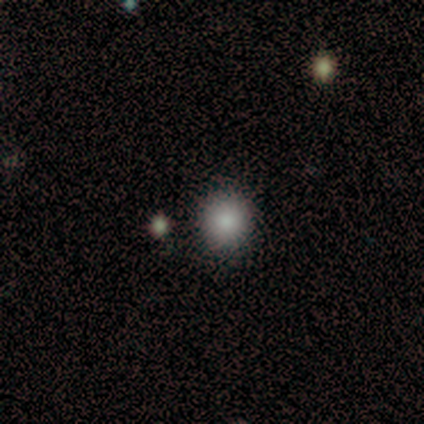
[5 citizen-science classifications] A smooth galaxy with no disk features (100%) that is round (100%).

Vote fractions:
- Smooth or featured? smooth: 100% / featured or disk: 0% / star or artifact: 0%
- How rounded? round: 100% / in between: 0% / cigar-shaped: 0%
- Merging? none: 80% / major disturbance: 20% / minor disturbance: 0% / merger: 0%